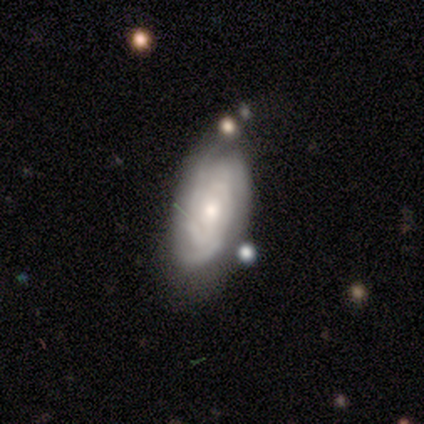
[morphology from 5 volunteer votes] This appears to be a featured or disk galaxy (100%) with no bar (75%), 3 (50%) tight (100%) spiral arms (100%) and a small central bulge (75%). Merging: none (40%, tied with minor disturbance).